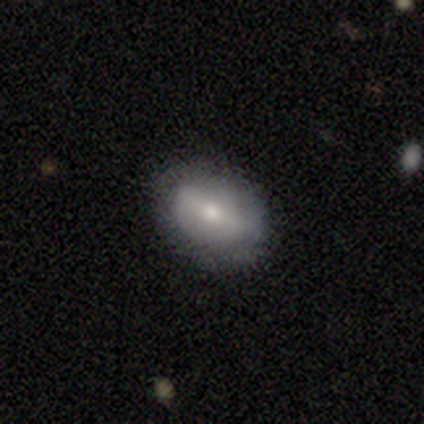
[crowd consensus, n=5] A smooth galaxy with no disk features (60%) that is in between round and cigar-shaped (67%). Merging: none (100%).